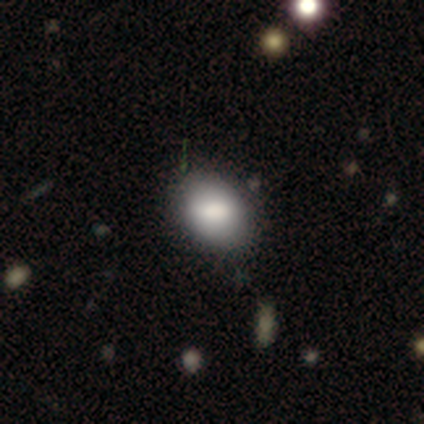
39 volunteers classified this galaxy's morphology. Volunteers were most divided on "how rounded": in between: 64%, round: 36%, cigar-shaped: 0%. More confident: smooth or featured — smooth (85%); merging — none (61%).